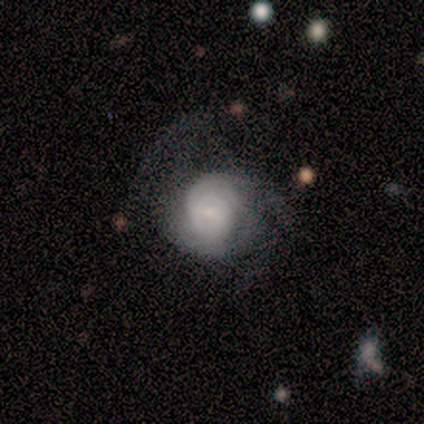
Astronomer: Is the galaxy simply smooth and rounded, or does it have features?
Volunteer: featured or disk — 100%.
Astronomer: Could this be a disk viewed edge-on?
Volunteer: no — 100%.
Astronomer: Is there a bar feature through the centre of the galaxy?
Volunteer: no — 60% (runner-up: weak, 40%).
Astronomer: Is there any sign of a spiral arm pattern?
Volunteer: yes — 100%.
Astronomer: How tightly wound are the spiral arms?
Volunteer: tight — 80%.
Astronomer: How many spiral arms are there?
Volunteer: can't tell — 40% (runner-up: 2, 20%).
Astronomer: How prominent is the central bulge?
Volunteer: moderate — 60%.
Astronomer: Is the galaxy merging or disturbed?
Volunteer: none — 40%, tied with major disturbance at 40%.